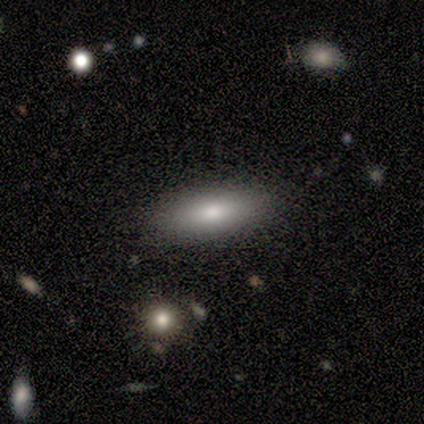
Volunteers were most divided on "smooth or featured": smooth: 80%, featured or disk: 20%, star or artifact: 0%. More confident: how rounded — in between (100%); merging — none (80%).